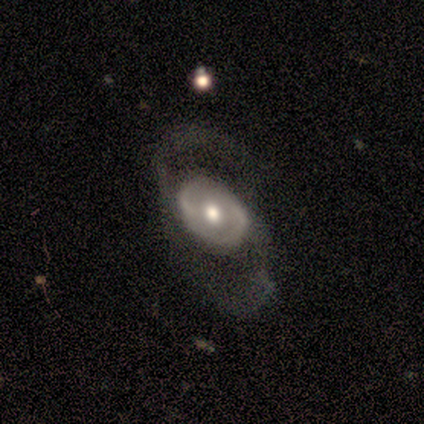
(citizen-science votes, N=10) featured or disk 90%, smooth 10%, star or artifact 0%. Down the decision tree: edge-on disk — no (100%); bar — no (89%); spiral arms — yes (78%); spiral arm count — 2 (86%); spiral winding — loose (57%); bulge size — moderate (78%); merging — none (40%, tied with major disturbance).